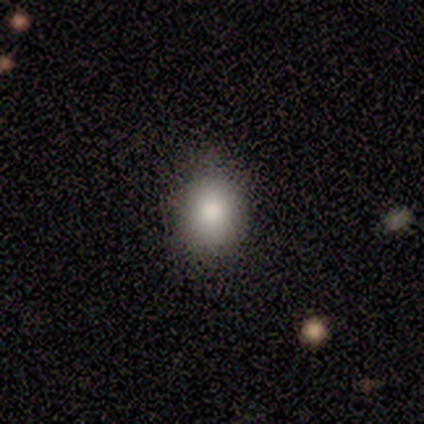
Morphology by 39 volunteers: Q: Smooth or featured?
A: smooth (95%); runner-up: featured or disk (5%)
Q: How rounded?
A: round (57%); runner-up: in between (41%)
Q: Merging?
A: none (44%); runner-up: minor disturbance (13%)